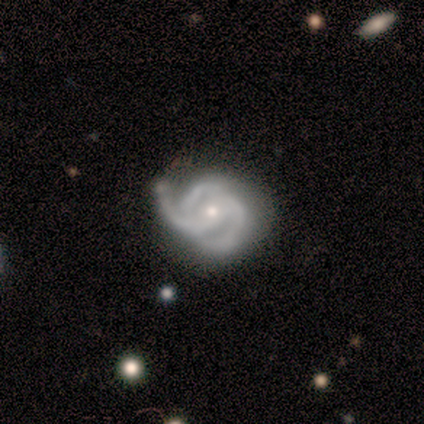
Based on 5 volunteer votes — smooth-or-featured: featured or disk: 80% | star or artifact: 20% | smooth: 0%
  disk-edge-on: no: 100% | yes: 0%
    bar: weak: 75% | no: 25% | strong: 0%
    has-spiral-arms: yes: 100% | no: 0%
      spiral-winding: medium: 75% | tight: 25% | loose: 0%
      spiral-arm-count: 3: 50% | 1: 25% | can't tell: 25% | 2: 0% | 4: 0% | more than 4: 0%
    bulge-size: small: 100% | dominant: 0% | large: 0% | moderate: 0% | none: 0%
  merging: none: 100% | minor disturbance: 0% | major disturbance: 0% | merger: 0%